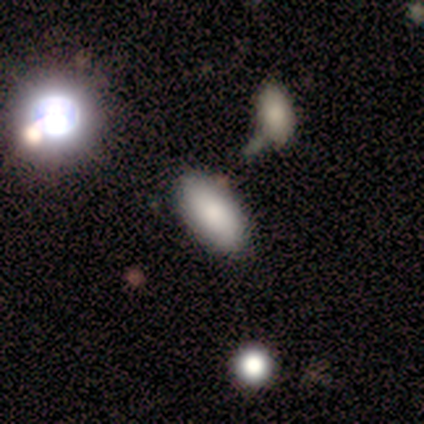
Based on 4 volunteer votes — smooth 100%, featured or disk 0%, star or artifact 0%. Down the decision tree: how rounded — in between (75%); merging — none (75%).